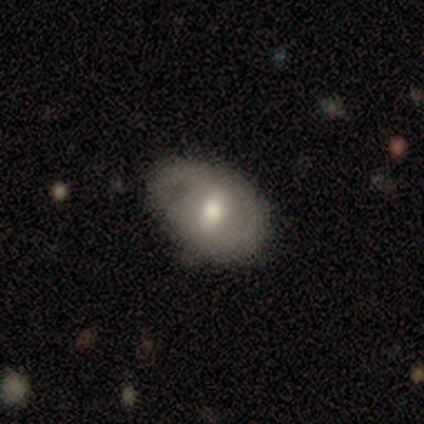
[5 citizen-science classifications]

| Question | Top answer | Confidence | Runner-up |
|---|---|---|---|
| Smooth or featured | featured or disk | 60% | smooth (20%) |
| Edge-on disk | no | 100% | — |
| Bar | strong | 33% | tied: weak (33%), no (33%) |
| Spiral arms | yes | 100% | — |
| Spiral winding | medium | 67% | tight (33%) |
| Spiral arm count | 1 | 67% | 2 (33%) |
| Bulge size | moderate | 100% | — |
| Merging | none | 50% | tied: minor disturbance (50%) |